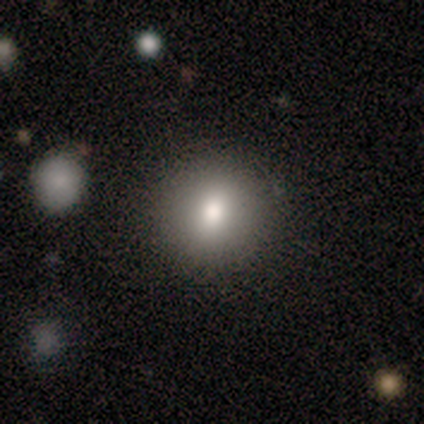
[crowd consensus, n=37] Smooth or featured? 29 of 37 (78%) said smooth. How rounded? 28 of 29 (97%) said round. Merging? 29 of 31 (94%) said none.